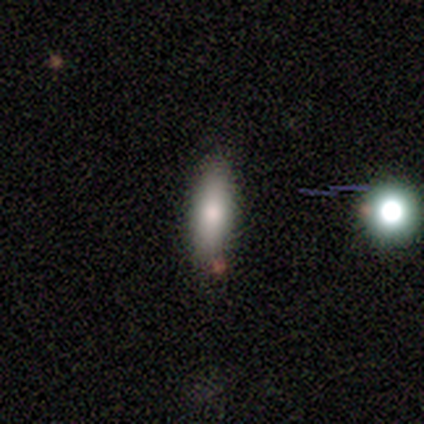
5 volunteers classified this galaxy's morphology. smooth_or_featured: smooth (p=0.80) [alt: featured or disk p=0.20]
how_rounded: in between (p=0.50) [tied with: cigar-shaped p=0.50]
merging: none (p=1.00)